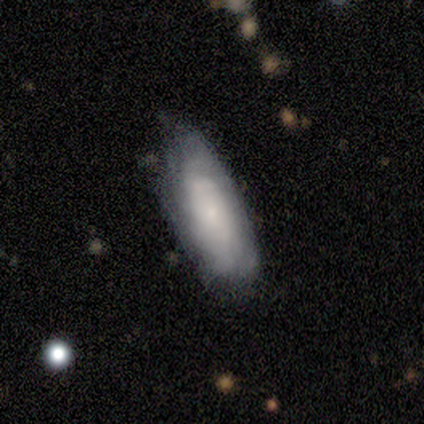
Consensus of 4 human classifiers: This appears to be a smooth galaxy with no disk features (50%, tied with featured or disk) that is in between round and cigar-shaped (100%). Merging: none (75%).